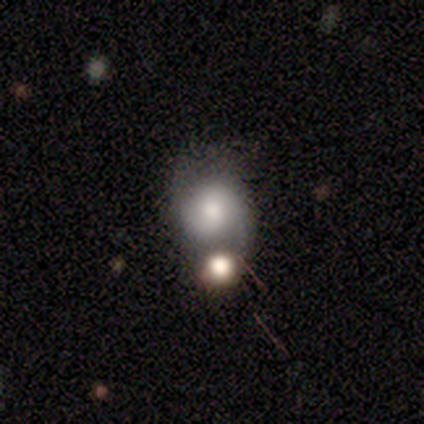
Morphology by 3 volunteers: A smooth galaxy with no disk features (67%) that is round (100%).

Vote fractions:
- Smooth or featured? smooth: 67% / star or artifact: 33% / featured or disk: 0%
- How rounded? round: 100% / in between: 0% / cigar-shaped: 0%
- Merging? minor disturbance: 50% (tied) / merger: 50% (tied) / none: 0% / major disturbance: 0%